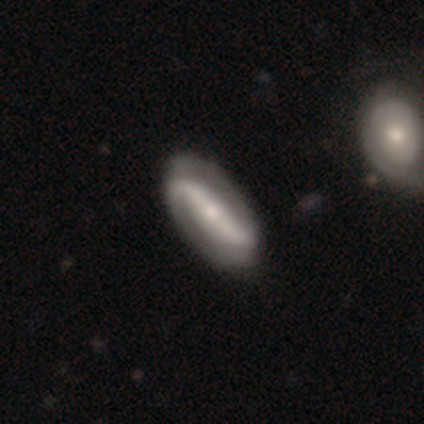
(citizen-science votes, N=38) featured or disk 74%, smooth 16%, star or artifact 11%. Down the decision tree: edge-on disk — no (82%); bar — strong (74%); spiral arms — yes (100%); spiral arm count — 2 (91%); spiral winding — loose (61%); bulge size — small (70%); merging — none (76%).